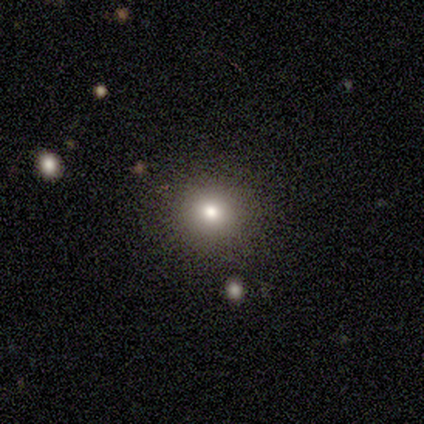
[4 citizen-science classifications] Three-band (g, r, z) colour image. It shows a smooth galaxy with no disk features (100%) that is round (100%). Merging: none (75%).